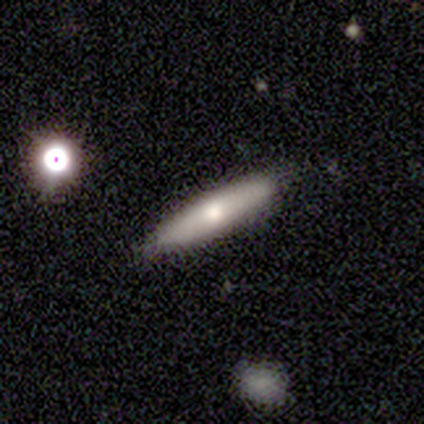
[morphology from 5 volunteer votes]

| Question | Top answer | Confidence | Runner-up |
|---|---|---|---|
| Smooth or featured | smooth | 60% | featured or disk (40%) |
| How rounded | cigar-shaped | 100% | — |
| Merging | none | 60% | minor disturbance (40%) |